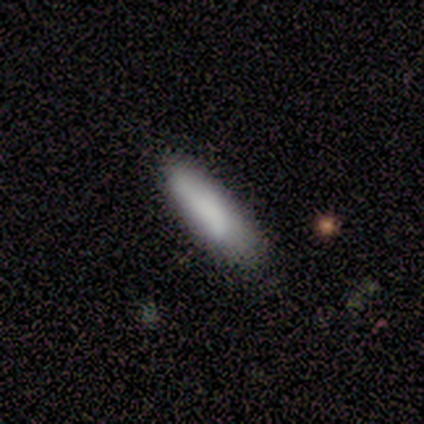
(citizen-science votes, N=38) Smooth or featured? 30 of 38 (79%) said smooth. How rounded? 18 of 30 (60%) said cigar-shaped. Merging? 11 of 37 (30%) said none.